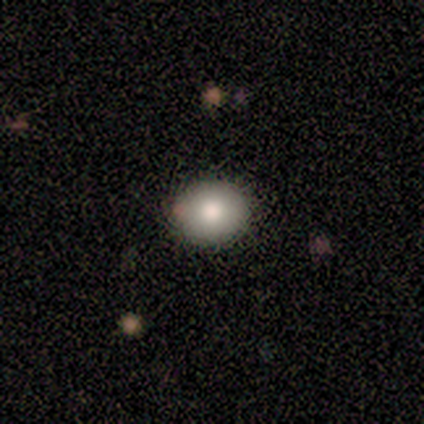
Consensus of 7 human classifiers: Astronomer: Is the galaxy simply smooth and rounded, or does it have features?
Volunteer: smooth — 86%.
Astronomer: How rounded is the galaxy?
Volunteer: round — 83%.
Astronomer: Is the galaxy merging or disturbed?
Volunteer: none — 100%.